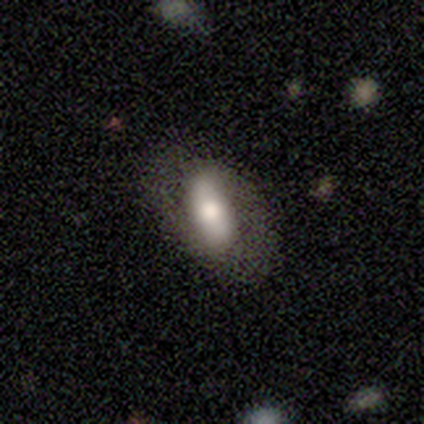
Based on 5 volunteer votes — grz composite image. It shows a featured or disk galaxy (80%) with a strong bar (50%), no spiral arms (75%) and a moderate central bulge (50%). Merging: none (80%).